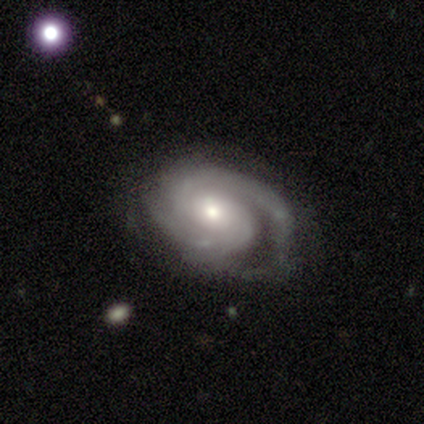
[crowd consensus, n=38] featured or disk 97%, star or artifact 3%, smooth 0%. Down the decision tree: edge-on disk — no (97%); bar — no (53%); spiral arms — yes (100%); spiral arm count — 2 (58%); spiral winding — tight (50%); bulge size — moderate (44%); merging — none (49%).